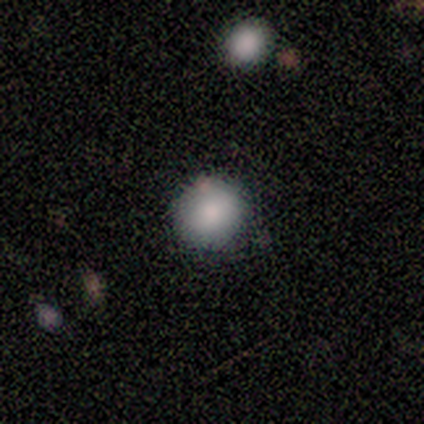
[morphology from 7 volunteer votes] Overall: smooth (86%). How rounded: round (100%). Merging: none (100%).